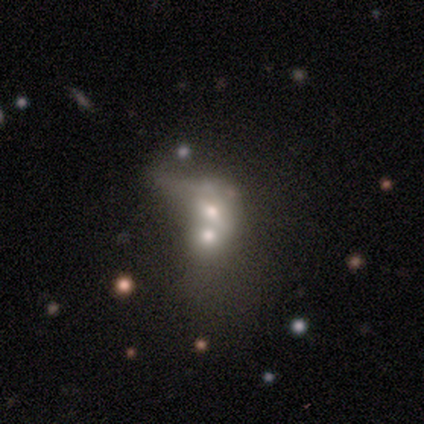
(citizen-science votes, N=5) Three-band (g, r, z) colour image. It shows a smooth galaxy with no disk features (60%) that is round (67%). Merging: merger (100%).